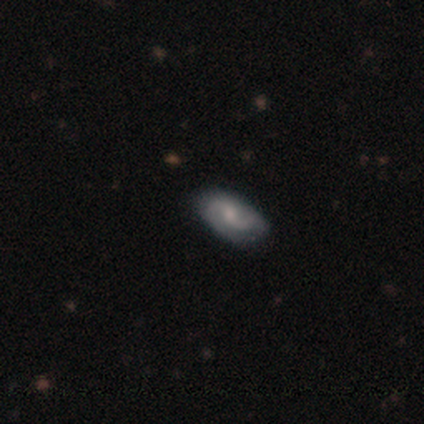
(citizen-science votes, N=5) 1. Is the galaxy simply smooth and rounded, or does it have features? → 60% featured or disk, 40% smooth, 0% star or artifact.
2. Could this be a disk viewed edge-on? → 67% no, 33% yes.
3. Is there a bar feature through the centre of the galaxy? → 50% strong (tied), 50% weak (tied), 0% no.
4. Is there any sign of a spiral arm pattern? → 100% yes, 0% no.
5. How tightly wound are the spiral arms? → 100% loose, 0% tight, 0% medium.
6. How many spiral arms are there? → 100% 2, 0% 1, 0% 3, 0% 4, 0% more than 4, 0% can't tell.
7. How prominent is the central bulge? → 50% moderate (tied), 50% none (tied), 0% dominant, 0% large, 0% small.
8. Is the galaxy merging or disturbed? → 60% none, 40% minor disturbance, 0% major disturbance, 0% merger.